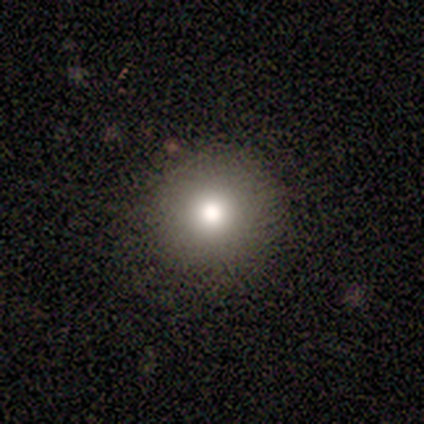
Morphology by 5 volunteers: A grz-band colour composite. It shows a smooth galaxy with no disk features (100%) that is round (100%). Merging: none (80%).